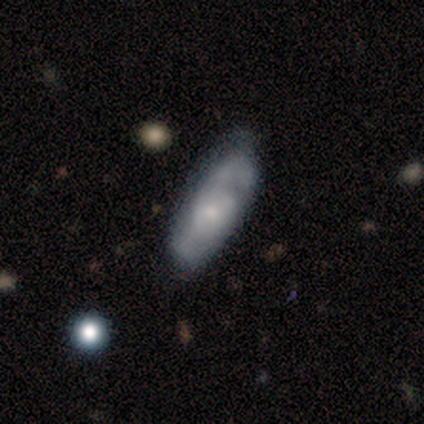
Volunteers were most divided on "smooth or featured": featured or disk: 60%, smooth: 40%, star or artifact: 0%. More confident: bar — no (100%); spiral arms — yes (100%); spiral winding — medium (100%); spiral arm count — 2 (100%); bulge size — small (100%); edge-on disk — no (67%); merging — none (60%).